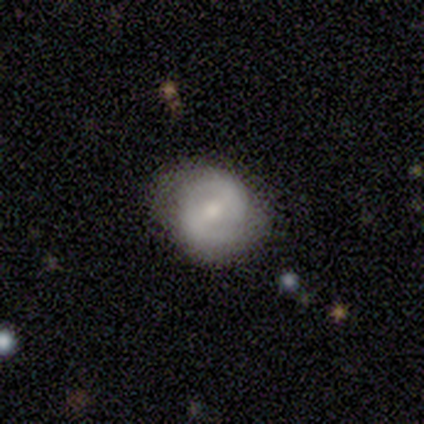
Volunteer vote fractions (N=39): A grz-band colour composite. It shows a featured or disk galaxy (77%) with a weak bar (40%), 2 (81%) medium (52%) spiral arms (70%) and a moderate central bulge (67%). Merging: none (62%).